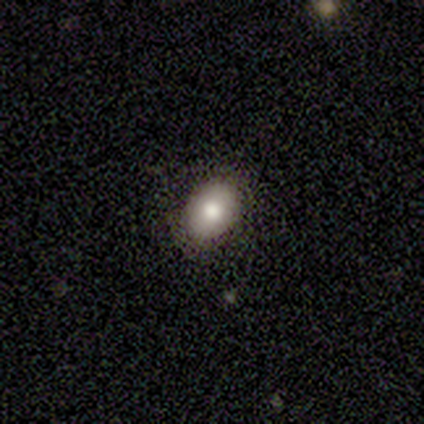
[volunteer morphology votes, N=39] This appears to be a smooth galaxy with no disk features (82%) that is in between round and cigar-shaped (84%). Merging: none (81%).